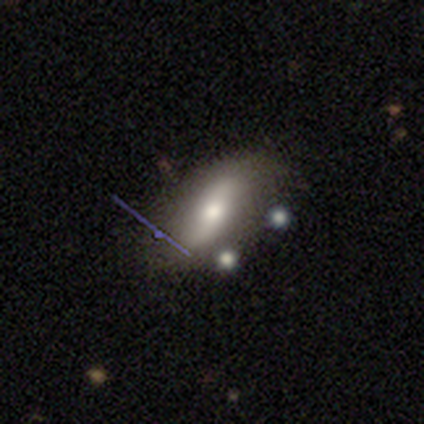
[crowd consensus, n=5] featured or disk 80%, smooth 20%, star or artifact 0%. Down the decision tree: edge-on disk — no (100%); bar — no (75%); spiral arms — yes (50%, tied with no); spiral arm count — 2 (100%); spiral winding — tight (50%, tied with loose); bulge size — moderate (50%, tied with small); merging — none (100%).